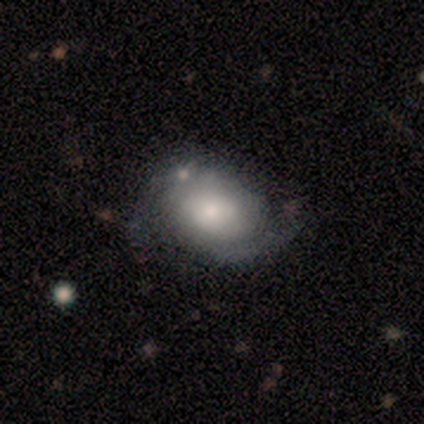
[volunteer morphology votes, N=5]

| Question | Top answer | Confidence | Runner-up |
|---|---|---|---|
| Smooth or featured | featured or disk | 60% | smooth (40%) |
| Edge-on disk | no | 100% | — |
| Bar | no | 100% | — |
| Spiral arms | yes | 100% | — |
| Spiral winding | medium | 100% | — |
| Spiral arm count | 2 | 67% | can't tell (33%) |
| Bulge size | moderate | 100% | — |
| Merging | none | 60% | minor disturbance (40%) |